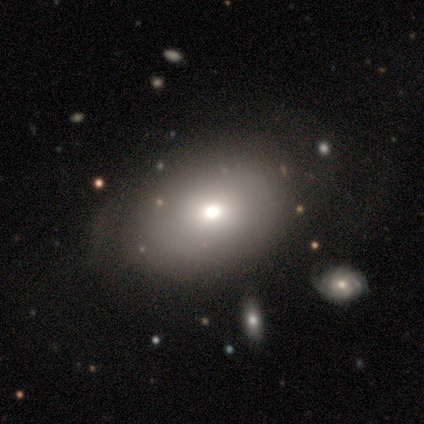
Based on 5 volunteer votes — Smooth or featured? featured or disk (60%)
Edge-on disk? no (67%)
Bar? no (100%)
Spiral arms? no (100%)
Bulge size? moderate (100%)
Merging? none (100%)